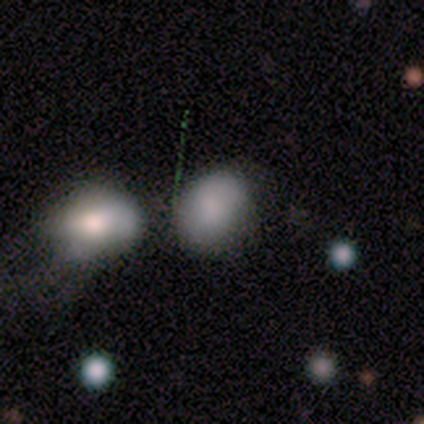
smooth-or-featured: smooth: 60% | star or artifact: 40% | featured or disk: 0%
  how-rounded: in between: 100% | round: 0% | cigar-shaped: 0%
  merging: none: 33% (tied) | minor disturbance: 33% (tied) | merger: 33% (tied) | major disturbance: 0%